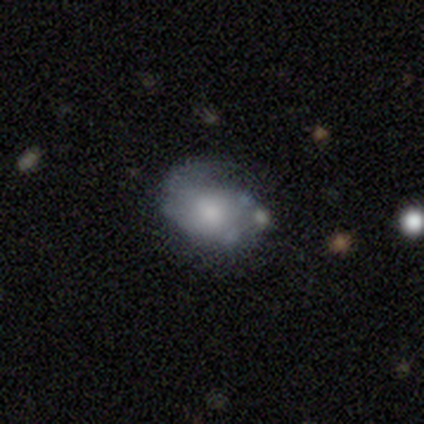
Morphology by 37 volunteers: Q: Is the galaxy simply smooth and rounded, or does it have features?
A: smooth — 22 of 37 (59%).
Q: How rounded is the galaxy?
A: in between — 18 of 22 (82%).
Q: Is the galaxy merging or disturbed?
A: minor disturbance — 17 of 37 (46%).